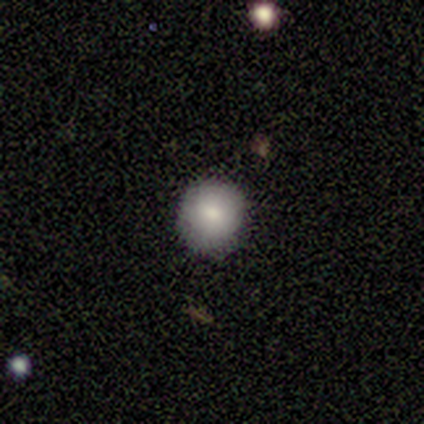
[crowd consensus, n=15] Smooth or featured? 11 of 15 (73%) said smooth. How rounded? 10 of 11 (91%) said round. Merging? 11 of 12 (92%) said none.